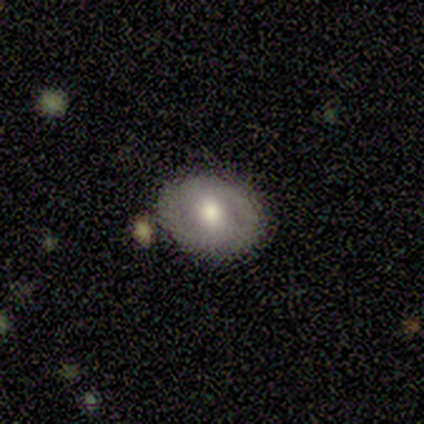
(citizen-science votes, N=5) smooth_or_featured: smooth (p=0.80) [alt: featured or disk p=0.20]
how_rounded: round (p=0.50) [tied with: in between p=0.50]
merging: none (p=0.80) [alt: major disturbance p=0.20]